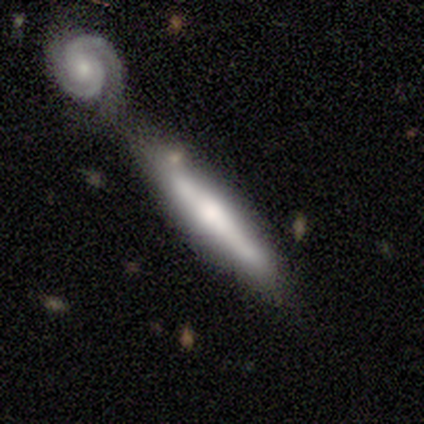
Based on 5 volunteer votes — Smooth or featured?
  - featured or disk: 80% *
  - smooth: 20%
  - star or artifact: 0%
Edge-on disk?
  - yes: 75% *
  - no: 25%
Edge-on bulge?
  - rounded: 100% *
  - boxy: 0%
  - none: 0%
Merging?
  - none: 60% *
  - minor disturbance: 20%
  - merger: 20%
  - major disturbance: 0%